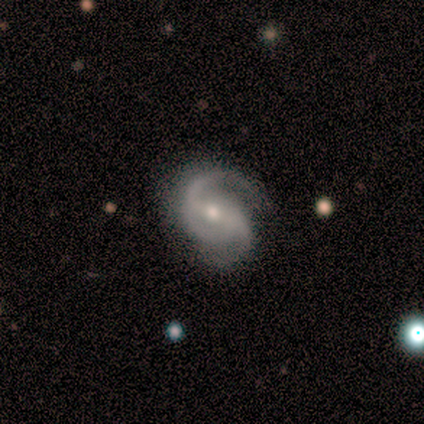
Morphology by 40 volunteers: Volunteers were most divided on "bar": no: 42%, weak: 36%, strong: 22%. More confident: spiral arms — yes (100%); edge-on disk — no (97%); smooth or featured — featured or disk (92%); spiral arm count — 2 (83%); bulge size — moderate (64%); merging — none (57%); spiral winding — loose (50%).